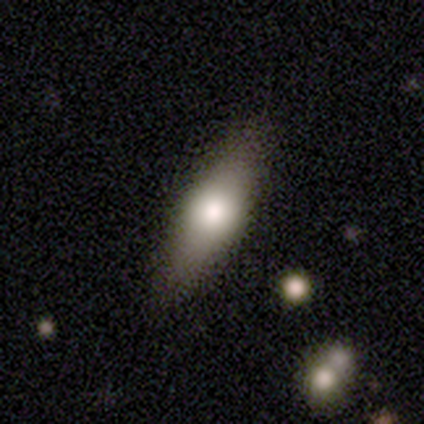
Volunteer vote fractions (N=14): Overall: smooth (64%; featured or disk 36%). How rounded: in between (67%; cigar-shaped 33%). Merging: none (71%).